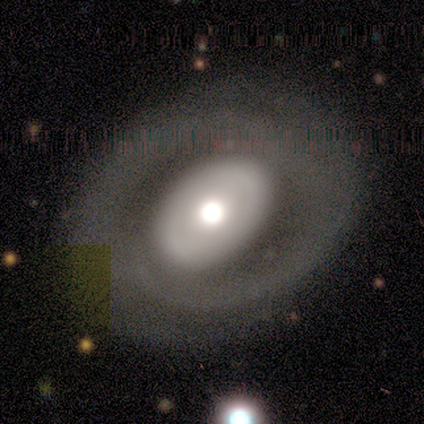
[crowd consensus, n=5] Q: Smooth or featured?
A: featured or disk (100%)
Q: Edge-on disk?
A: no (100%)
Q: Bar?
A: no (100%)
Q: Spiral arms?
A: no (60%); runner-up: yes (40%)
Q: Bulge size?
A: large (60%); runner-up: moderate (40%)
Q: Merging?
A: none (80%); runner-up: minor disturbance (20%)